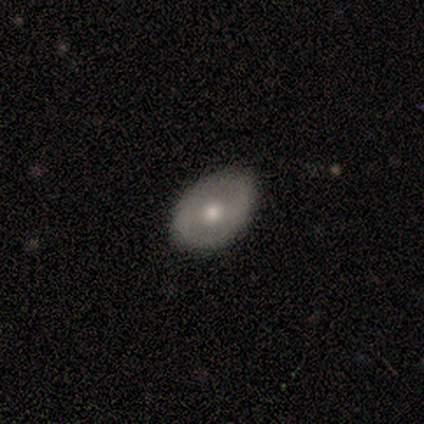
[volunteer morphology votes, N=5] featured or disk 60%, smooth 40%, star or artifact 0%. Down the decision tree: edge-on disk — yes (67%); edge-on bulge — rounded (100%); merging — none (100%).